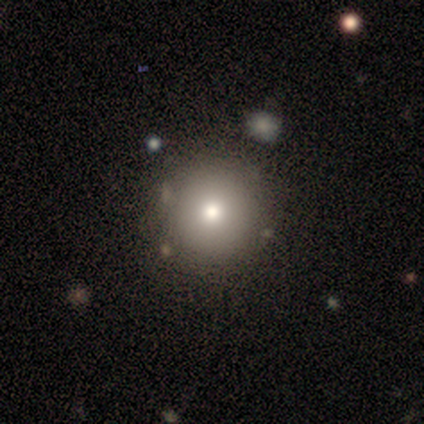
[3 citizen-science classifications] Consensus on every question: smooth or featured — smooth (100%); how rounded — round (100%); merging — none (100%).